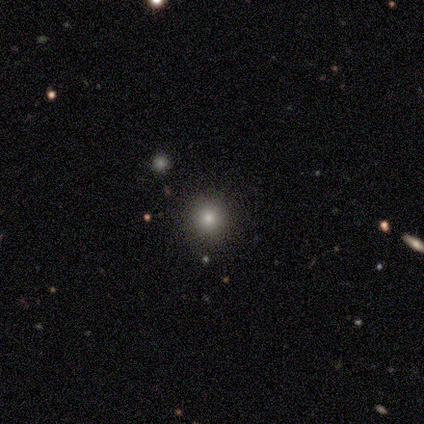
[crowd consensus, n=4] smooth_or_featured: smooth (p=0.75) [alt: featured or disk p=0.25]
how_rounded: in between (p=0.67) [alt: round p=0.33]
merging: none (p=1.00)